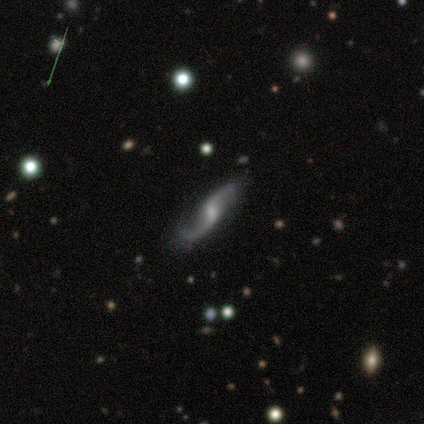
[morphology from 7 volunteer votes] type=featured or disk (100%); edge-on=no (100%); bar=weak (57%); spiral arms=yes (100%); winding=loose (71%); arm count=2 (100%); bulge=moderate (57%); merging=none (100%).